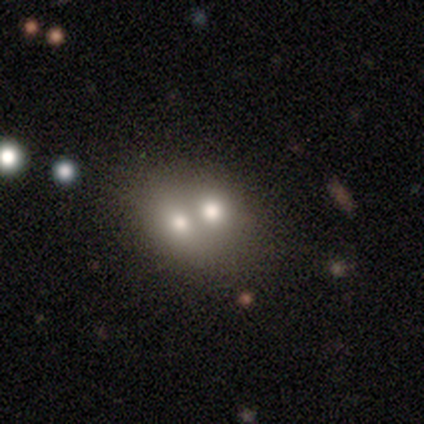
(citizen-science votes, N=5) Overall: smooth (80%). How rounded: round (50%, tied with in between). Merging: merger (60%; none 40%).